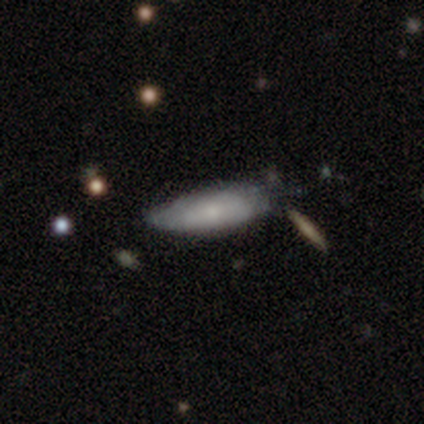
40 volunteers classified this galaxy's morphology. Smooth or featured? smooth (68%)
How rounded? in between (63%)
Merging? none (49%, tied with minor disturbance)